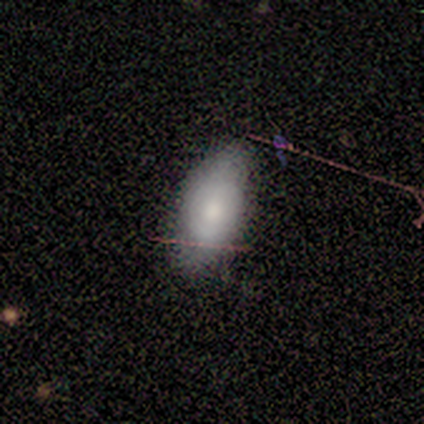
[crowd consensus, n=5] smooth 80%, featured or disk 20%, star or artifact 0%. Down the decision tree: how rounded — in between (100%); merging — none (60%).